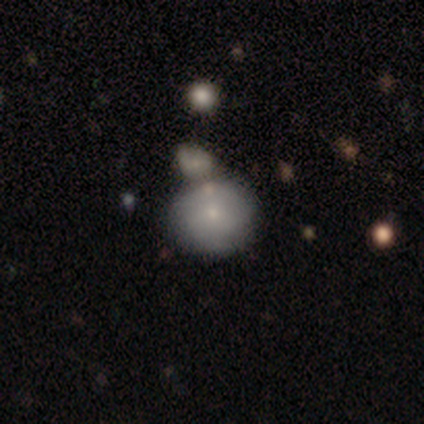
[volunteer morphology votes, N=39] Volunteers were most divided on "merging": none: 39%, merger: 34%, minor disturbance: 21%, major disturbance: 5%. More confident: how rounded — round (79%); smooth or featured — smooth (72%).